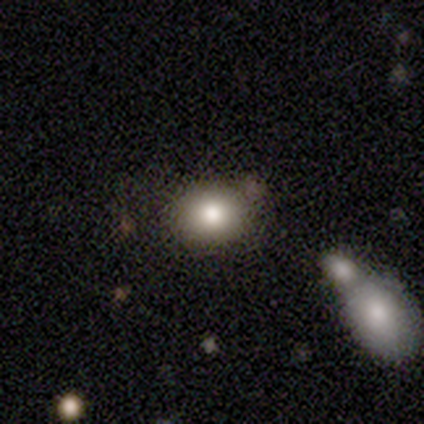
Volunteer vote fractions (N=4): Q: Smooth or featured?
A: smooth (100%)
Q: How rounded?
A: round (50%); tied with: in between (50%)
Q: Merging?
A: none (100%)